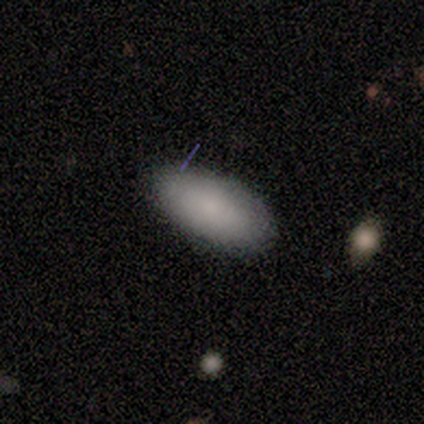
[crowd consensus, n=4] Volunteers were most divided on "merging": none: 75%, minor disturbance: 25%, major disturbance: 0%, merger: 0%. More confident: smooth or featured — smooth (100%); how rounded — in between (100%).